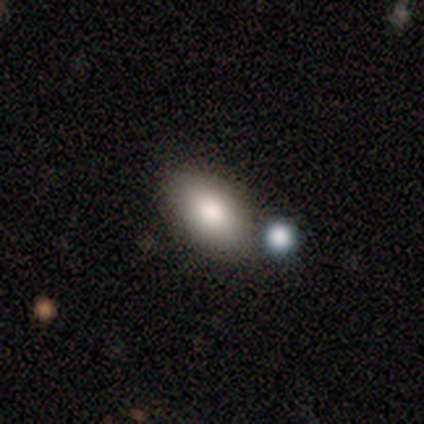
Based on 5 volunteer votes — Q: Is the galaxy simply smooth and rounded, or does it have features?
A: smooth — 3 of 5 (60%).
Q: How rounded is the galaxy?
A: in between — 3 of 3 (100%).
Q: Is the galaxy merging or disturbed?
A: none — 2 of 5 (40%, tied with merger).